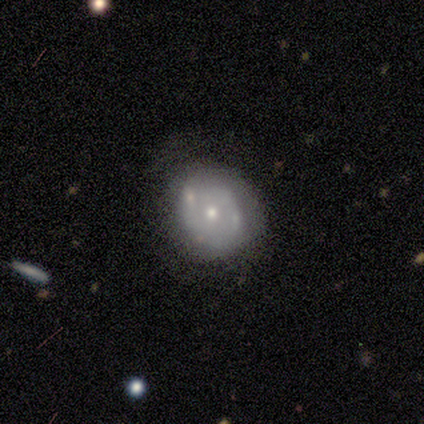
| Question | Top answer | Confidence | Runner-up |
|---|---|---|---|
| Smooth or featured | featured or disk | 75% | smooth (25%) |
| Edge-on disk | no | 100% | — |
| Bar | no | 100% | — |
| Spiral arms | yes | 67% | no (33%) |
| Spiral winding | tight | 100% | — |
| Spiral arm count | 2 | 100% | — |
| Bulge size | small | 67% | moderate (33%) |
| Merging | none | 75% | major disturbance (25%) |